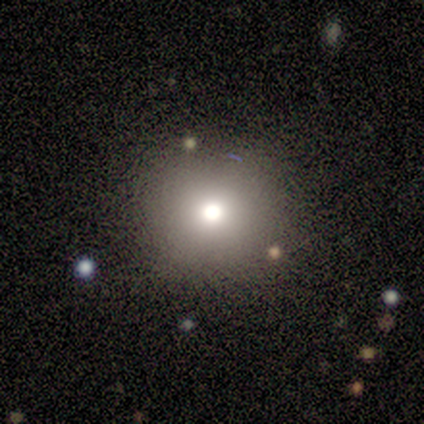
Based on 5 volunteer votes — Smooth or featured? 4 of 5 (80%) said smooth. How rounded? 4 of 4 (100%) said round. Merging? 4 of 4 (100%) said none.